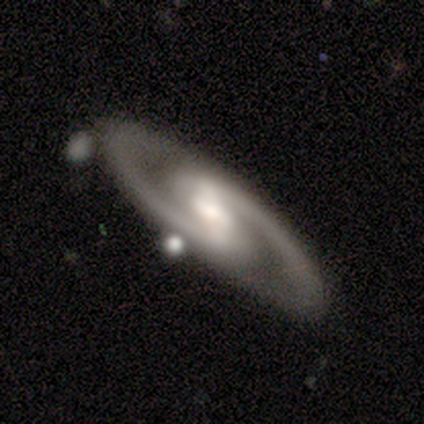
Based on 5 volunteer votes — featured or disk 100%, smooth 0%, star or artifact 0%. Down the decision tree: edge-on disk — no (80%); bar — strong (75%); spiral arms — yes (100%); spiral arm count — 2 (100%); spiral winding — tight (75%); bulge size — moderate (75%); merging — none (80%).